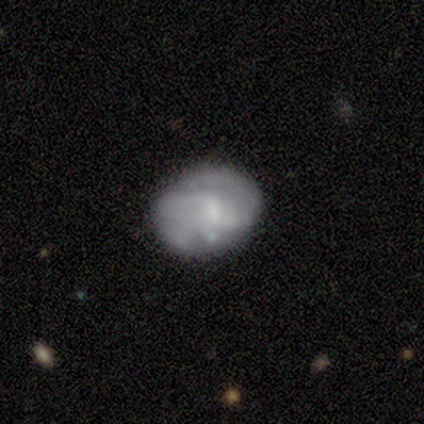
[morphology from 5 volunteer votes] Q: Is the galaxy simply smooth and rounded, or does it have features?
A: featured or disk — 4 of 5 (80%).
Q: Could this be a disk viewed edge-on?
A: no — 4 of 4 (100%).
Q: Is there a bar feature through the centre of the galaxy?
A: weak — 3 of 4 (75%).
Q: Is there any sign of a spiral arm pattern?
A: yes — 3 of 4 (75%).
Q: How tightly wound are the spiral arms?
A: tight — 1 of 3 (33%, tied with medium and loose).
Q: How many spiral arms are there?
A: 2 — 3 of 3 (100%).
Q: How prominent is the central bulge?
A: small — 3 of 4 (75%).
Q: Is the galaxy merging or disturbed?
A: none — 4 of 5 (80%).